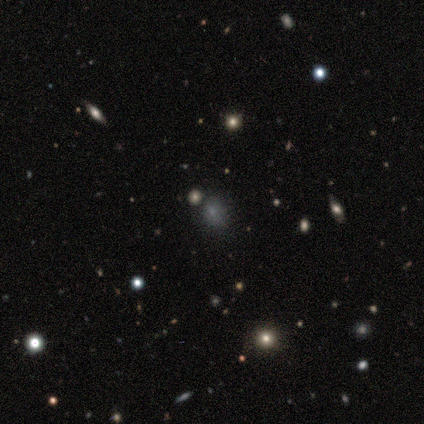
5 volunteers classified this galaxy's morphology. star or artifact 60%, smooth 40%, featured or disk 0%.